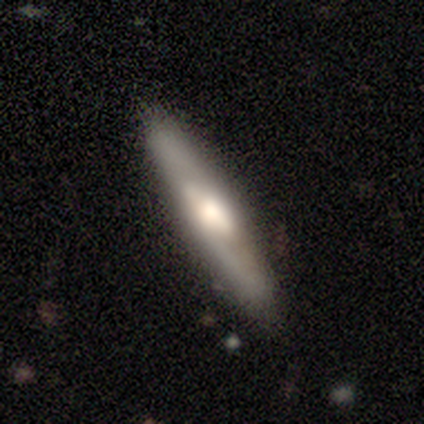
smooth_or_featured: featured or disk (p=1.00)
disk_edge_on: yes (p=0.75) [alt: no p=0.25]
edge_on_bulge: rounded (p=1.00)
merging: none (p=0.75) [alt: minor disturbance p=0.25]